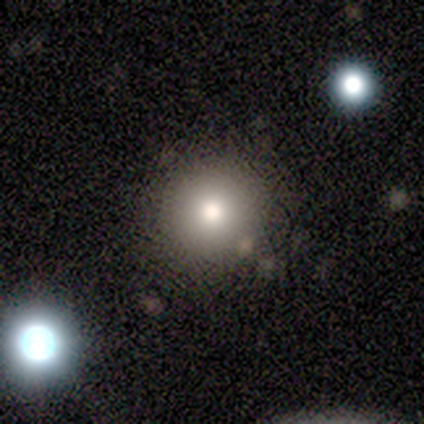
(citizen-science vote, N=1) Smooth or featured? featured or disk (100%)
Edge-on disk? no (100%)
Bar? no (100%)
Spiral arms? yes (100%)
Spiral winding? tight (100%)
Spiral arm count? can't tell (100%)
Bulge size? large (100%)
Merging? none (100%)